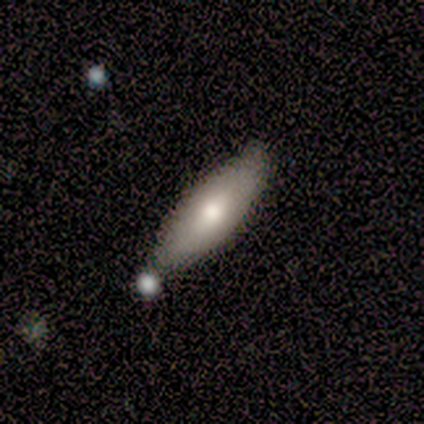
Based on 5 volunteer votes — Volunteers were most divided on "smooth or featured": smooth: 60%, featured or disk: 40%, star or artifact: 0%. More confident: how rounded — in between (100%); merging — none (100%).